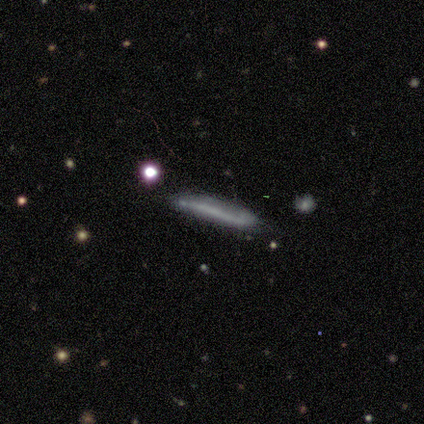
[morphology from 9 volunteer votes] Smooth or featured? 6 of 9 (67%) said smooth. How rounded? 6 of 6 (100%) said cigar-shaped. Merging? 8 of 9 (89%) said none.